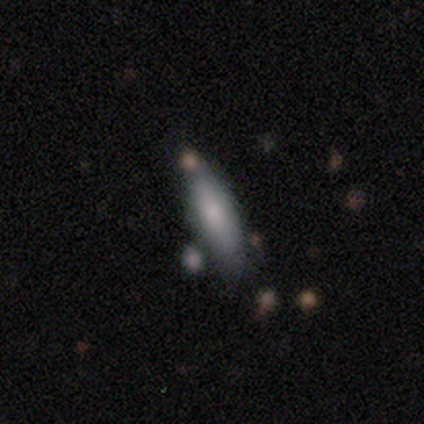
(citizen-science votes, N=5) This appears to be a smooth galaxy with no disk features (100%) that is cigar-shaped (100%). Merging: none (60%).